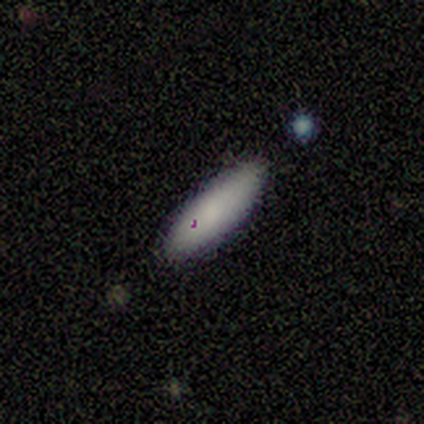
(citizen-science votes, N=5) Smooth or featured? smooth (100%)
How rounded? cigar-shaped (60%)
Merging? none (80%)